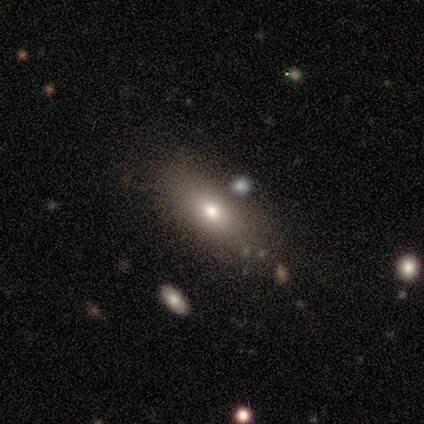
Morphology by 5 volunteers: Volunteers were most divided on "smooth or featured": smooth: 80%, featured or disk: 20%, star or artifact: 0%. More confident: how rounded — in between (100%); merging — none (100%).